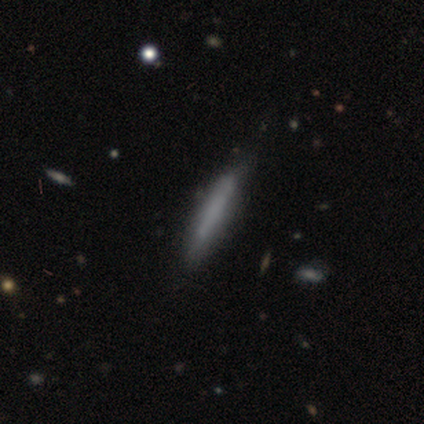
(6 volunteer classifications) Morphology: type=smooth (67%); roundness=cigar-shaped (75%); merging=none (83%).